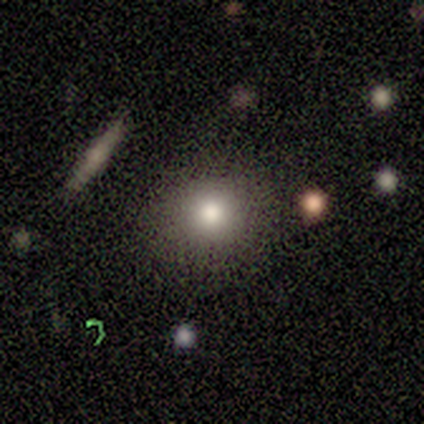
This is clearly a smooth galaxy (100%). How rounded: clearly round (100%). Merging: clearly none (100%).